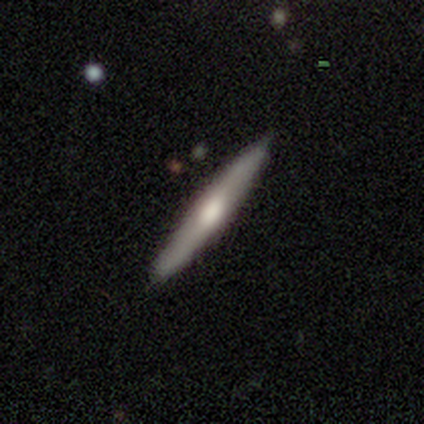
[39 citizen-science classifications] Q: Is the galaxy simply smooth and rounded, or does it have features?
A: smooth — 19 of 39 (49%).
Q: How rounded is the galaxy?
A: cigar-shaped — 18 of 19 (95%).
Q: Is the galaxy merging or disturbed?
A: none — 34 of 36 (94%).